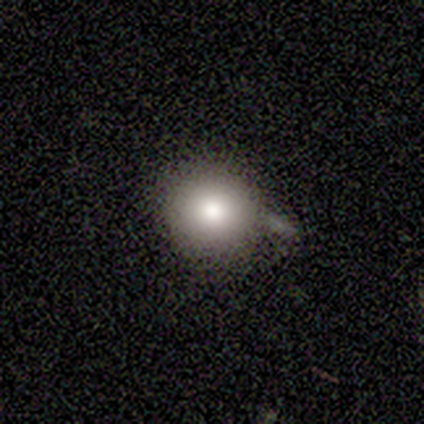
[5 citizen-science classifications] Volunteers were most divided on "merging" (2-way tie): none: 40%, minor disturbance: 40%, major disturbance: 20%, merger: 0%. More confident: smooth or featured — smooth (100%); how rounded — round (100%).